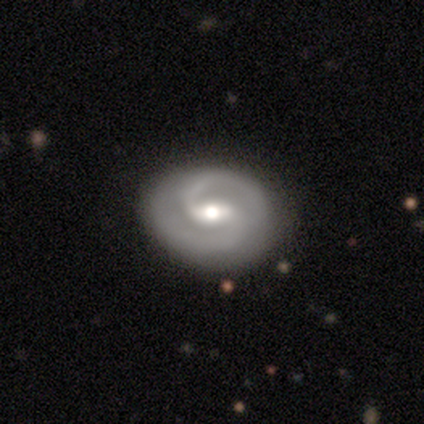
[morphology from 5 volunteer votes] Overall: featured or disk (80%). Edge-on disk: no (100%). Bar: weak (100%). Spiral arms: yes (100%). Spiral arm count: 2 (75%). Spiral winding: tight (50%, tied with medium). Bulge size: moderate (50%; small 25%). Merging: none (80%).